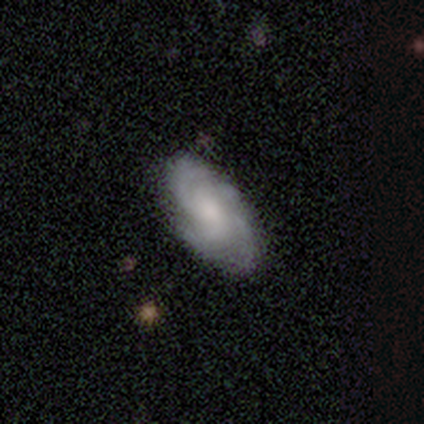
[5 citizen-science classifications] A featured or disk galaxy (100%) with no bar (100%), 4 (40%) medium (80%) spiral arms (100%) and a moderate central bulge (40%, tied with none).

Vote fractions:
- Smooth or featured? featured or disk: 100% / smooth: 0% / star or artifact: 0%
- Edge-on disk? no: 100% / yes: 0%
- Bar? no: 100% / strong: 0% / weak: 0%
- Spiral arms? yes: 100% / no: 0%
- Spiral winding? medium: 80% / tight: 20% / loose: 0%
- Spiral arm count? 4: 40% / 2: 20% / 3: 20% / can't tell: 20% / 1: 0% / more than 4: 0%
- Bulge size? moderate: 40% (tied) / none: 40% (tied) / small: 20% / dominant: 0% / large: 0%
- Merging? none: 80% / minor disturbance: 20% / major disturbance: 0% / merger: 0%